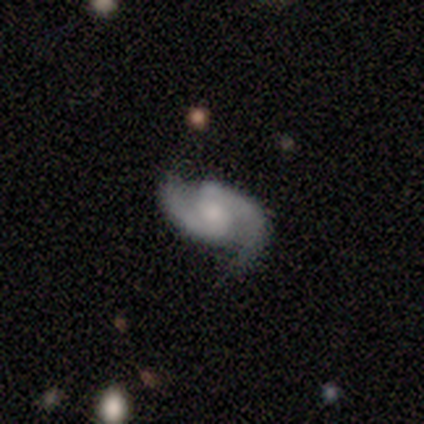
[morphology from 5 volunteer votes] smooth-or-featured: featured or disk: 100% | smooth: 0% | star or artifact: 0%
  disk-edge-on: no: 100% | yes: 0%
    bar: weak: 60% | strong: 20% | no: 20%
    has-spiral-arms: yes: 100% | no: 0%
      spiral-winding: medium: 80% | loose: 20% | tight: 0%
      spiral-arm-count: 2: 100% | 1: 0% | 3: 0% | 4: 0% | more than 4: 0% | can't tell: 0%
    bulge-size: small: 80% | moderate: 20% | dominant: 0% | large: 0% | none: 0%
  merging: none: 80% | major disturbance: 20% | minor disturbance: 0% | merger: 0%